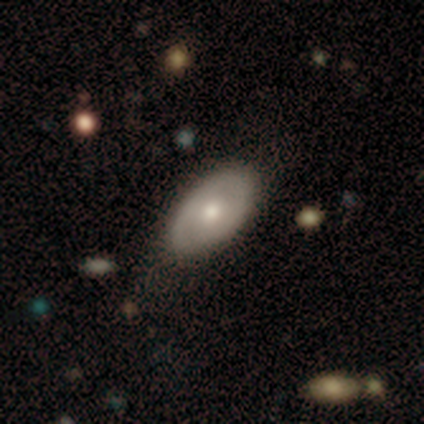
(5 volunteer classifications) Volunteers were most divided on "smooth or featured": smooth: 60%, featured or disk: 40%, star or artifact: 0%. More confident: how rounded — in between (100%); merging — none (60%).